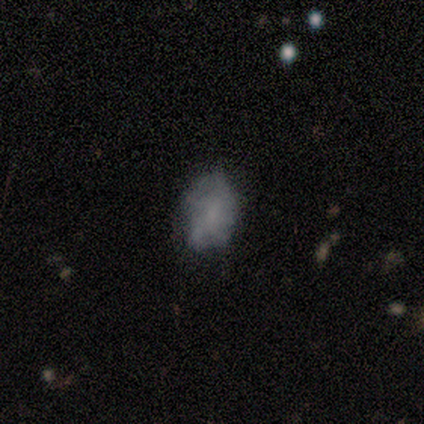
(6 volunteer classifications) smooth 67%, featured or disk 17%, star or artifact 17%. Down the decision tree: how rounded — in between (100%); merging — none (60%).